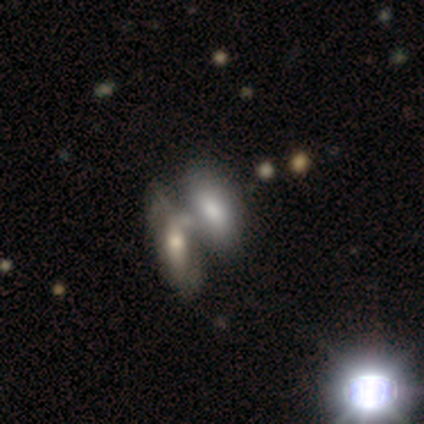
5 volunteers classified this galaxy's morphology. type=smooth (80%); roundness=in between (100%); merging=none (80%).